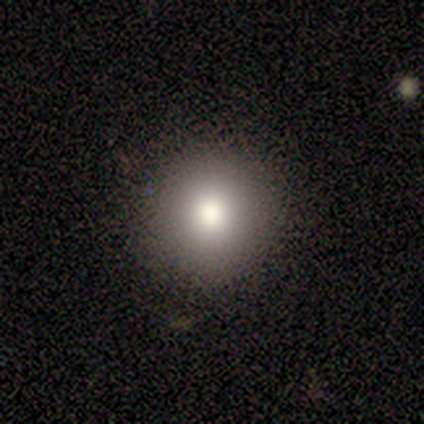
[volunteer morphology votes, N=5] A smooth galaxy with no disk features (60%) that is round (100%).

Vote fractions:
- Smooth or featured? smooth: 60% / star or artifact: 40% / featured or disk: 0%
- How rounded? round: 100% / in between: 0% / cigar-shaped: 0%
- Merging? none: 100% / minor disturbance: 0% / major disturbance: 0% / merger: 0%